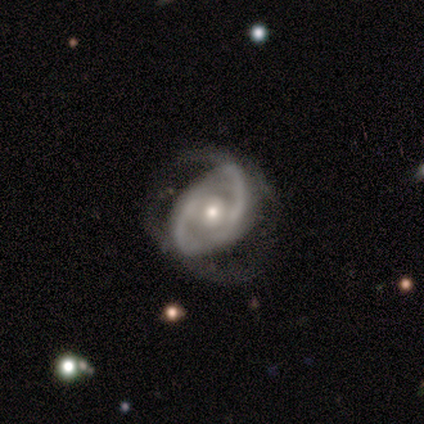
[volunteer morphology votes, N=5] This appears to be a featured or disk galaxy (80%) with no bar (67%), 2 (67%) tight (33%, tied with medium and loose) spiral arms (100%) and a small central bulge (67%). Merging: none (40%, tied with major disturbance).